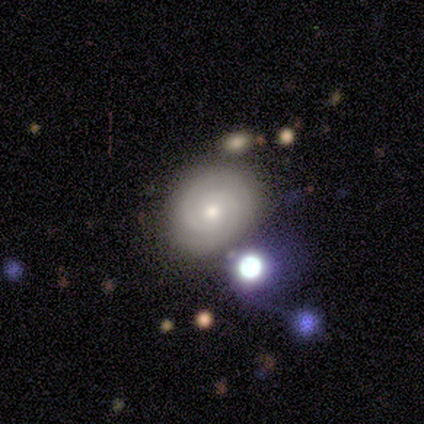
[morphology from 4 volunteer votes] featured or disk 75%, smooth 25%, star or artifact 0%. Down the decision tree: edge-on disk — no (100%); bar — weak (100%); spiral arms — yes (100%); spiral arm count — 1 (33%, tied with 2 and can't tell); spiral winding — tight (100%); bulge size — moderate (67%); merging — none (100%).